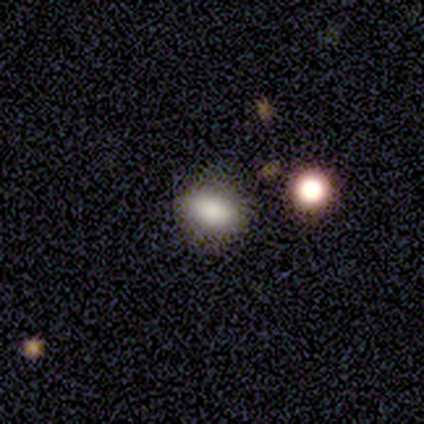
This appears to be a smooth galaxy with no disk features (82%) that is in between round and cigar-shaped (75%). Merging: none (48%).